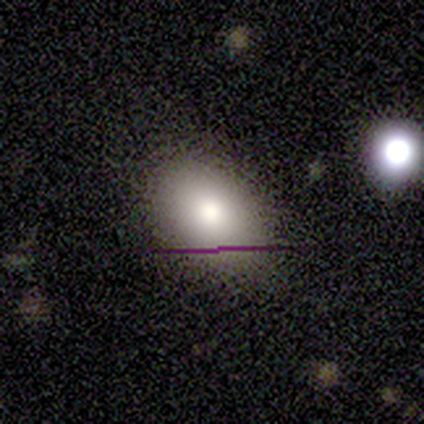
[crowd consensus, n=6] This appears to be a smooth galaxy with no disk features (83%) that is in between round and cigar-shaped (100%). Merging: none (100%).